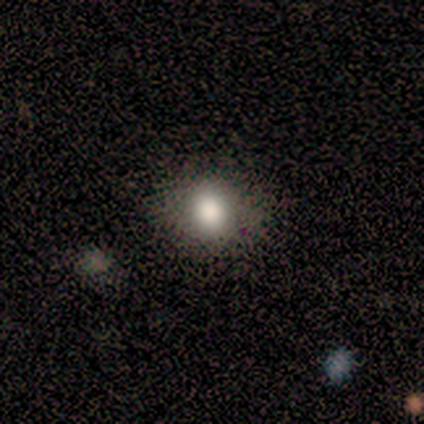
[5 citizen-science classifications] Smooth or featured? 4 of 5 (80%) said smooth. How rounded? 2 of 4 (50%, tied with in between) said round. Merging? 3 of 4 (75%) said none.